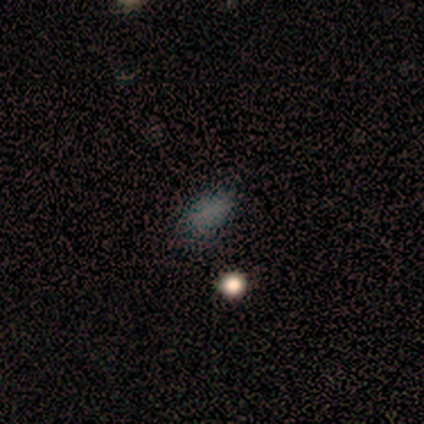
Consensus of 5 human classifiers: smooth-or-featured: smooth: 100% | featured or disk: 0% | star or artifact: 0%
  how-rounded: in between: 100% | round: 0% | cigar-shaped: 0%
  merging: none: 100% | minor disturbance: 0% | major disturbance: 0% | merger: 0%